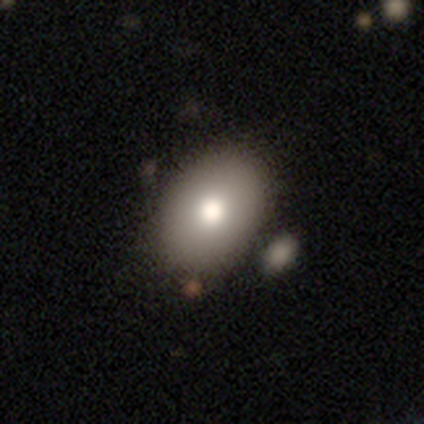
Smooth or featured? smooth (82%)
How rounded? in between (88%)
Merging? none (76%)